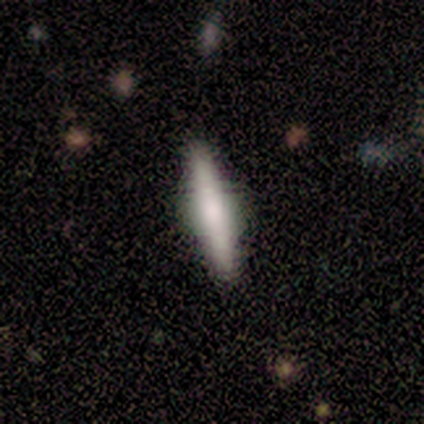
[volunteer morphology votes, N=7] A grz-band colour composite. It shows a featured or disk galaxy (71%) viewed edge-on (100%) with no central bulge (40%, tied with rounded). Merging: none (86%).